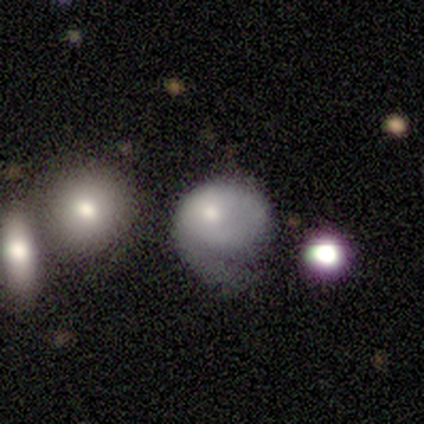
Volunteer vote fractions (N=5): Overall: featured or disk (60%; smooth 20%). Edge-on disk: no (100%). Bar: no (100%). Spiral arms: no (67%; yes 33%). Bulge size: small (67%; moderate 33%). Merging: major disturbance (50%; none 25%).